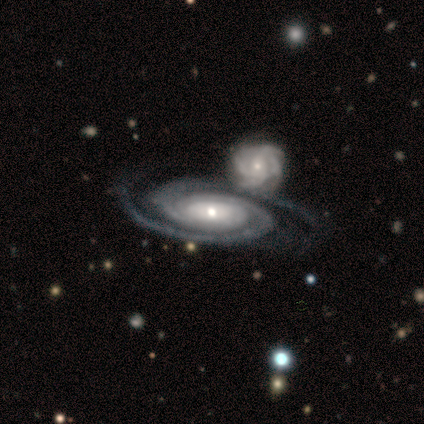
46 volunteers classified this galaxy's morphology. Smooth or featured? 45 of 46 (98%) said featured or disk. Edge-on disk? 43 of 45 (96%) said no. Bar? 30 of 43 (70%) said no. Spiral arms? 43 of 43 (100%) said yes. Spiral winding? 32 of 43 (74%) said tight. Spiral arm count? 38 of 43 (88%) said 2. Bulge size? 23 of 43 (53%) said small. Merging? 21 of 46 (46%) said merger.